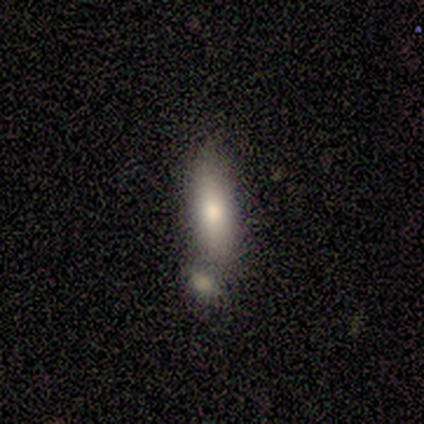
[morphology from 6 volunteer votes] This appears to be a smooth galaxy with no disk features (67%) that is cigar-shaped (75%). Merging: merger (67%).